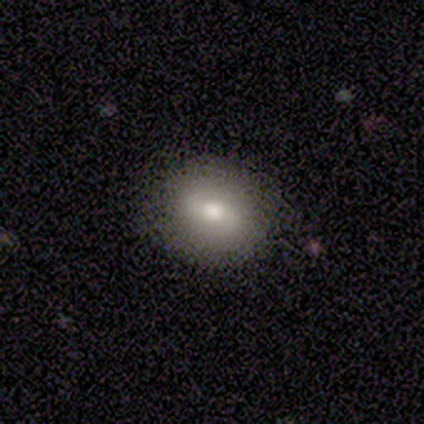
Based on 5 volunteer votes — A smooth galaxy with no disk features (60%) that is in between round and cigar-shaped (67%).

Vote fractions:
- Smooth or featured? smooth: 60% / featured or disk: 40% / star or artifact: 0%
- How rounded? in between: 67% / round: 33% / cigar-shaped: 0%
- Merging? none: 80% / minor disturbance: 20% / major disturbance: 0% / merger: 0%